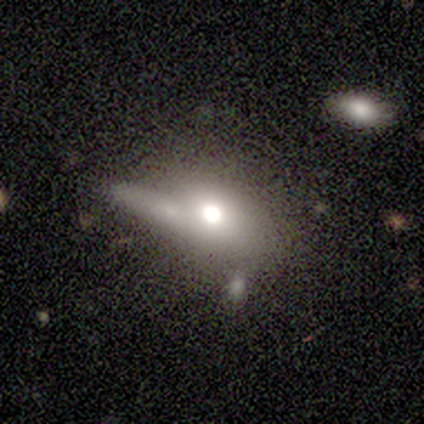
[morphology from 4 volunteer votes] A smooth galaxy with no disk features (50%, tied with featured or disk) that is in between round and cigar-shaped (100%).

Vote fractions:
- Smooth or featured? smooth: 50% (tied) / featured or disk: 50% (tied) / star or artifact: 0%
- How rounded? in between: 100% / round: 0% / cigar-shaped: 0%
- Merging? minor disturbance: 50% / none: 25% / merger: 25% / major disturbance: 0%